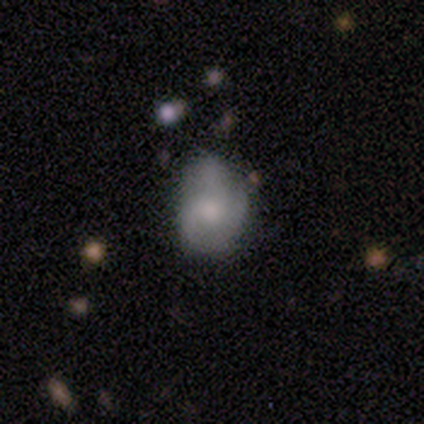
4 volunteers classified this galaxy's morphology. Smooth or featured? smooth (50%, tied with featured or disk)
How rounded? round (50%, tied with in between)
Merging? none (50%)